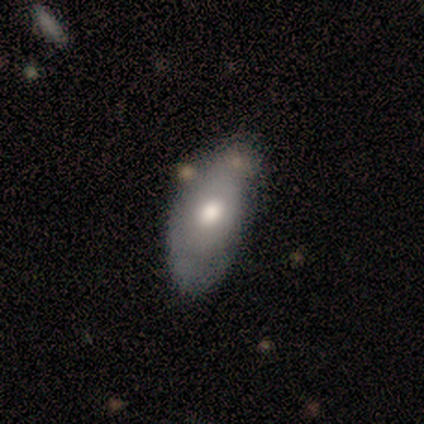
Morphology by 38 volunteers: Q: Smooth or featured?
A: smooth (61%); runner-up: featured or disk (24%)
Q: How rounded?
A: in between (91%); runner-up: round (4%)
Q: Merging?
A: none (50%); runner-up: minor disturbance (31%)